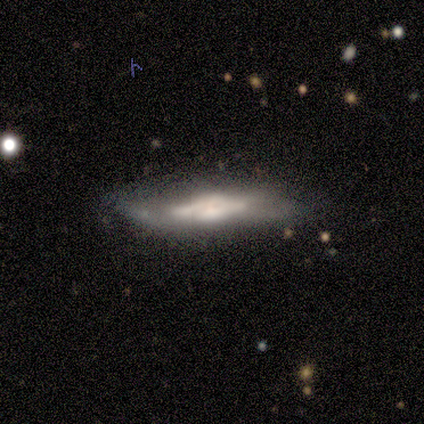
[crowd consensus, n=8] A featured or disk galaxy (75%) viewed edge-on (83%) with a boxy central bulge (60%).

Vote fractions:
- Smooth or featured? featured or disk: 75% / smooth: 25% / star or artifact: 0%
- Edge-on disk? yes: 83% / no: 17%
- Edge-on bulge? boxy: 60% / none: 20% / rounded: 20%
- Merging? minor disturbance: 62% / none: 38% / major disturbance: 0% / merger: 0%